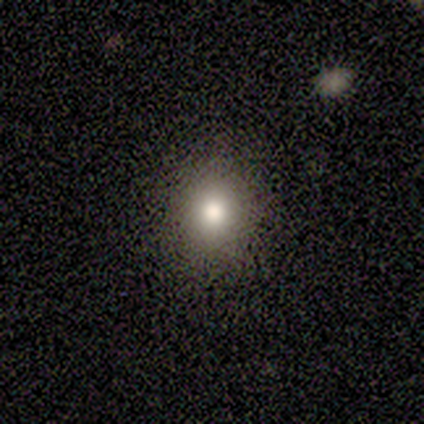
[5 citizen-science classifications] Smooth or featured: smooth — 60% (featured or disk — 40%)
How rounded: in between — 67% (round — 33%)
Merging: none — 100%